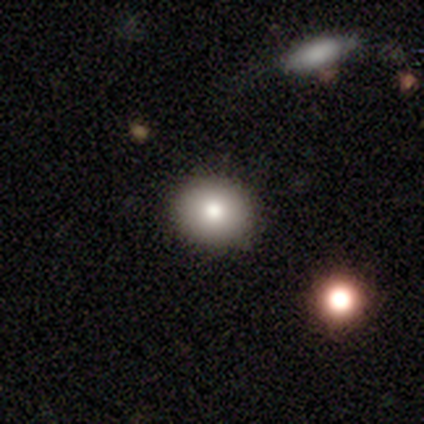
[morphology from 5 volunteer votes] This appears to be a smooth galaxy with no disk features (100%) that is round (80%). Merging: none (100%).